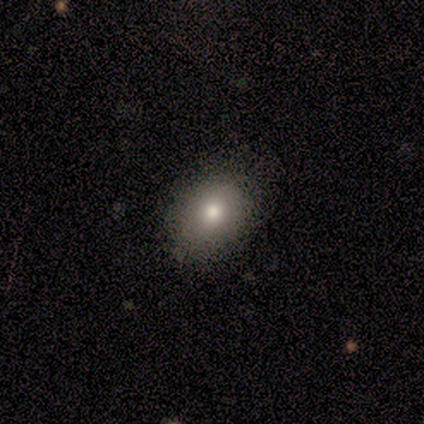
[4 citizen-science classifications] Smooth or featured? 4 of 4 (100%) said smooth. How rounded? 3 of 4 (75%) said in between. Merging? 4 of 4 (100%) said none.